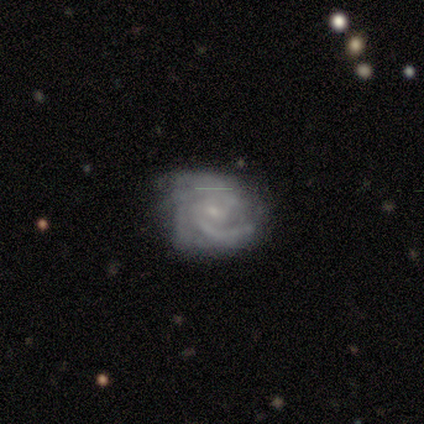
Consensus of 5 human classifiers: This is clearly a featured or disk galaxy (100%). It is clearly not viewed edge-on (100%). Bar: likely no (60%). Spiral arm pattern: clearly yes (100%). Spiral arm count: marginally 3 (40%). Spiral winding: likely medium (60%). Central bulge: clearly small (100%). Merging: clearly none (80%).